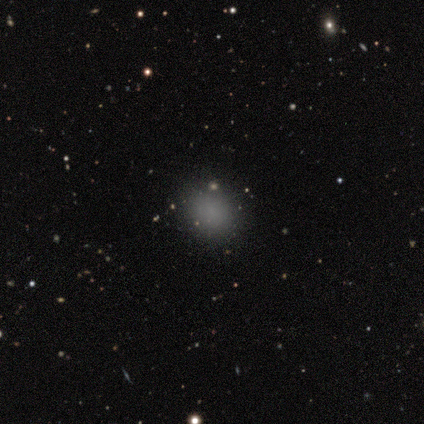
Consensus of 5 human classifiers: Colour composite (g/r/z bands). It shows a smooth galaxy with no disk features (100%) that is round (80%). Merging: none (100%).